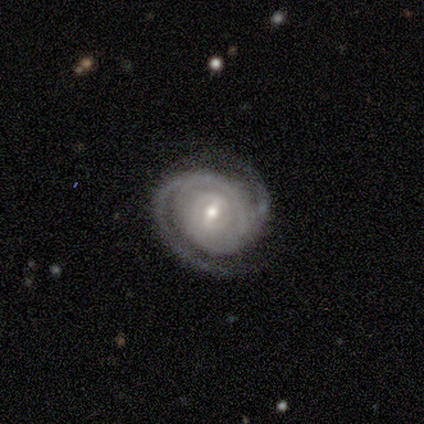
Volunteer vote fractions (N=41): Smooth or featured: featured or disk — 95% (smooth — 2%)
Edge-on disk: no — 97% (yes — 3%)
Bar: weak — 61% (strong — 21%)
Spiral arms: yes — 100%
Spiral winding: tight — 66% (medium — 34%)
Spiral arm count: 2 — 74% (can't tell — 16%)
Bulge size: moderate — 55% (small — 37%)
Merging: none — 65% (minor disturbance — 20%)